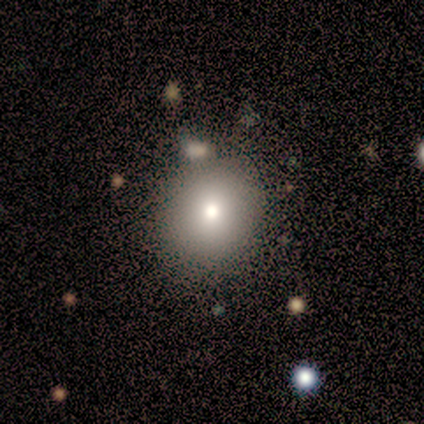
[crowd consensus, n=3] Smooth or featured? 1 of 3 (33%, tied with featured or disk and star or artifact) said smooth. How rounded? 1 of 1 (100%) said round. Merging? 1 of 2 (50%, tied with merger) said none.